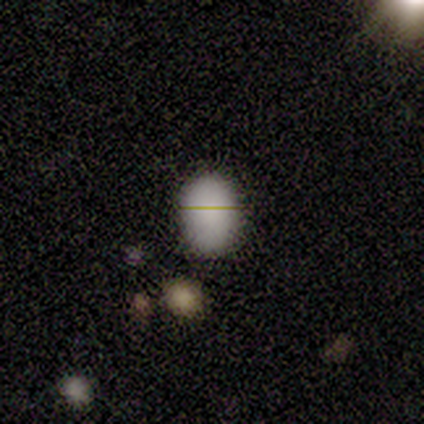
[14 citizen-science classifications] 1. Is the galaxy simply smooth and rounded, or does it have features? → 71% smooth, 21% star or artifact, 7% featured or disk.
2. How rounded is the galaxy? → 80% in between, 20% round, 0% cigar-shaped.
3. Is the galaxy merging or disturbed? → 82% none, 18% minor disturbance, 0% major disturbance, 0% merger.